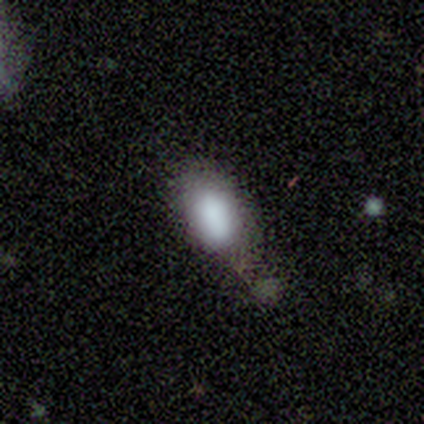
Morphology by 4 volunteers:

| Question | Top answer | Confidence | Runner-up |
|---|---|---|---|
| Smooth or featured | smooth | 75% | star or artifact (25%) |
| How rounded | in between | 100% | — |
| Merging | none | 67% | minor disturbance (33%) |